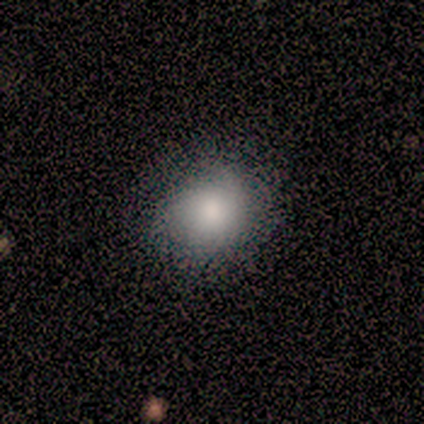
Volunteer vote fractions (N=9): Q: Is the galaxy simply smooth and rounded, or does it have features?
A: smooth — 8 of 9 (89%).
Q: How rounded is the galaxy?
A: round — 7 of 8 (88%).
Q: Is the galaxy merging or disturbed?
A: none — 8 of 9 (89%).